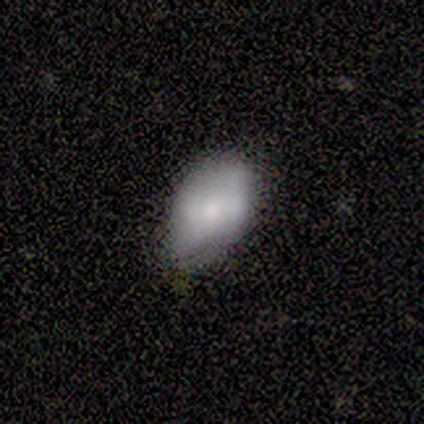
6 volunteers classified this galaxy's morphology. Smooth or featured?
  - smooth: 67% *
  - featured or disk: 33%
  - star or artifact: 0%
How rounded?
  - in between: 100% *
  - round: 0%
  - cigar-shaped: 0%
Merging?
  - none: 83% *
  - minor disturbance: 17%
  - major disturbance: 0%
  - merger: 0%